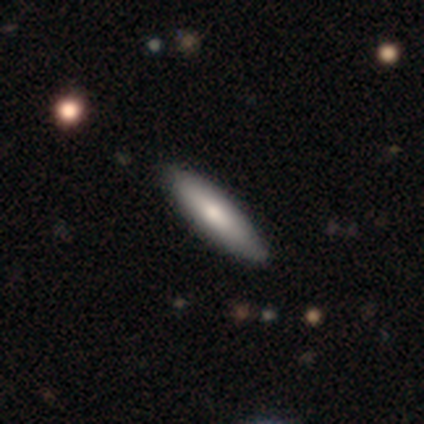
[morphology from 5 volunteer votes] smooth_or_featured: smooth (p=1.00)
how_rounded: cigar-shaped (p=0.60) [alt: in between p=0.40]
merging: none (p=1.00)